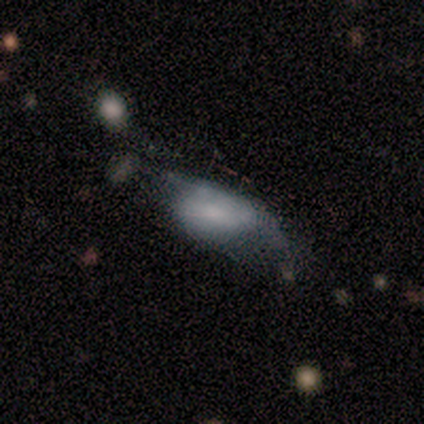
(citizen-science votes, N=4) This is clearly a smooth galaxy (100%). How rounded: clearly in between (100%). Merging: possibly none (50%).